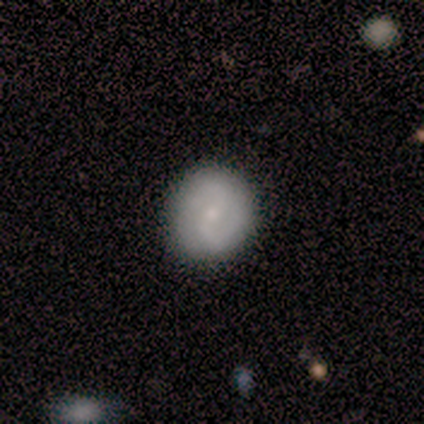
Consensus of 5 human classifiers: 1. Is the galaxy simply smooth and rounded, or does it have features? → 80% featured or disk, 20% smooth, 0% star or artifact.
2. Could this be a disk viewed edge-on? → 100% no, 0% yes.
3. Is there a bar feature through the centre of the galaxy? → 100% weak, 0% strong, 0% no.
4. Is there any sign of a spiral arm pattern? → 100% yes, 0% no.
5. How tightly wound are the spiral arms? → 100% loose, 0% tight, 0% medium.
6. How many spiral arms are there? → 75% 2, 25% can't tell, 0% 1, 0% 3, 0% 4, 0% more than 4.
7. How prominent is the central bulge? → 50% small, 25% moderate, 25% none, 0% dominant, 0% large.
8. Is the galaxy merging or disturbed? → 60% none, 20% minor disturbance, 20% major disturbance, 0% merger.